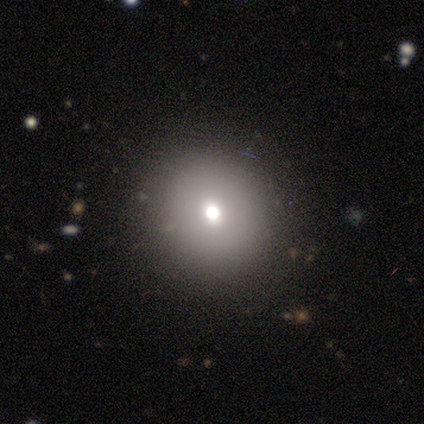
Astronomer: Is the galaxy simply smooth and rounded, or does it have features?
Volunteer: smooth — 68%.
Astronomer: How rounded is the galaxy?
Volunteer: round — 92%.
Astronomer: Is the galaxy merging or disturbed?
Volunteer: none — 94%.